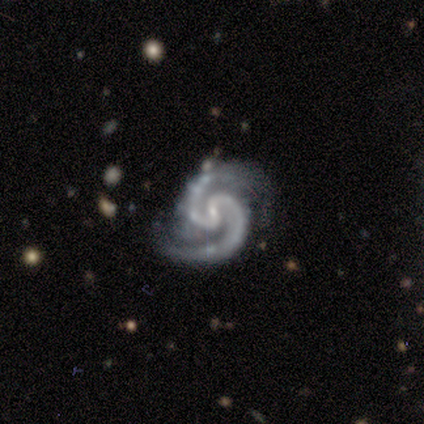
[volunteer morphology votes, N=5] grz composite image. It shows a featured or disk galaxy (100%) with a weak bar (80%), 2 (100%) medium (80%) spiral arms (100%) and a small central bulge (100%). Merging: none (100%).